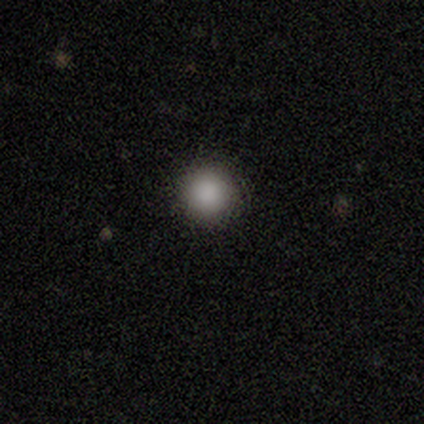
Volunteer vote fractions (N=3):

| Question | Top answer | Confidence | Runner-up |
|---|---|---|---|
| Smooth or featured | smooth | 100% | — |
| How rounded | round | 100% | — |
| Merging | none | 100% | — |